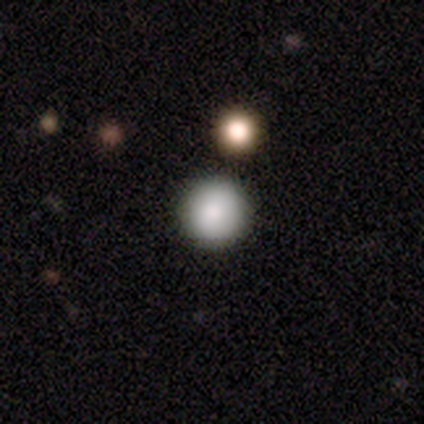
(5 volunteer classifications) A smooth galaxy with no disk features (100%) that is round (100%). Merging: none (100%).